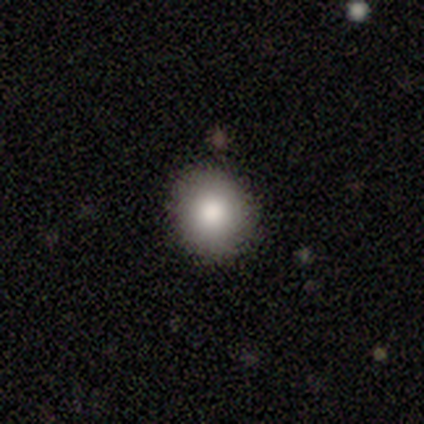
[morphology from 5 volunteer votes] Smooth or featured?
  - smooth: 80% *
  - featured or disk: 20%
  - star or artifact: 0%
How rounded?
  - round: 100% *
  - in between: 0%
  - cigar-shaped: 0%
Merging?
  - none: 100% *
  - minor disturbance: 0%
  - major disturbance: 0%
  - merger: 0%